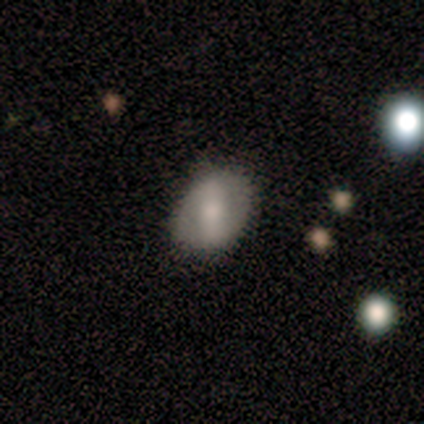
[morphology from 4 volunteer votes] This is possibly a smooth galaxy (50%, tied with featured or disk). How rounded: clearly in between (100%). Merging: likely none (75%).